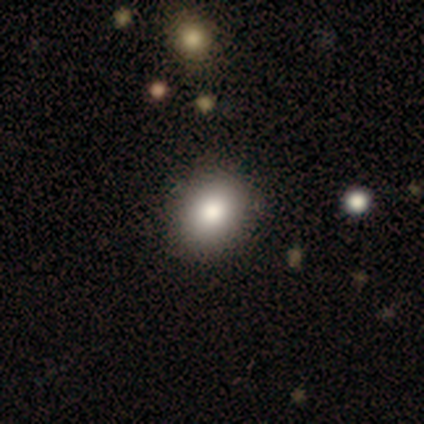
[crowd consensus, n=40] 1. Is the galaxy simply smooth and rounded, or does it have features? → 90% smooth, 10% featured or disk, 0% star or artifact.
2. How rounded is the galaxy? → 53% round, 47% in between, 0% cigar-shaped.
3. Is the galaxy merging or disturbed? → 82% none, 2% merger, 0% minor disturbance, 0% major disturbance.